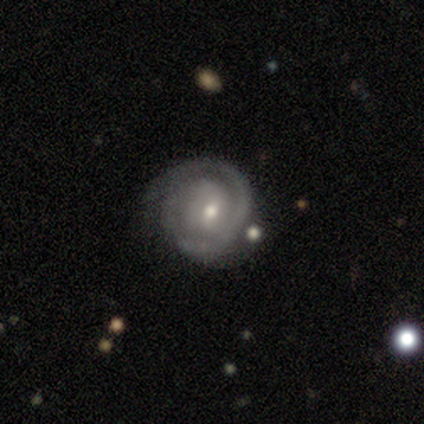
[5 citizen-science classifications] A featured or disk galaxy (100%) with no bar (80%), tight (100%) spiral arms (100%) and a small central bulge (60%).

Vote fractions:
- Smooth or featured? featured or disk: 100% / smooth: 0% / star or artifact: 0%
- Edge-on disk? no: 100% / yes: 0%
- Bar? no: 80% / weak: 20% / strong: 0%
- Spiral arms? yes: 100% / no: 0%
- Spiral winding? tight: 100% / medium: 0% / loose: 0%
- Spiral arm count? can't tell: 60% / 1: 20% / 2: 20% / 3: 0% / 4: 0% / more than 4: 0%
- Bulge size? small: 60% / moderate: 40% / dominant: 0% / large: 0% / none: 0%
- Merging? none: 60% / minor disturbance: 20% / major disturbance: 20% / merger: 0%